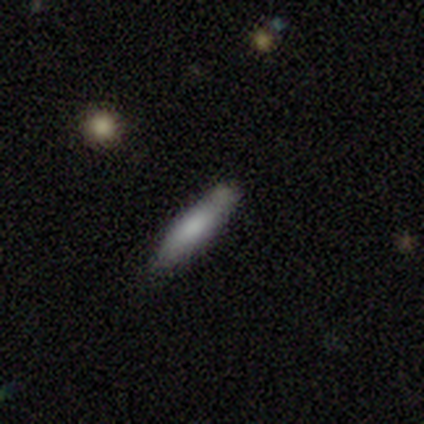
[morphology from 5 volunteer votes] Q: Smooth or featured?
A: smooth (80%); runner-up: star or artifact (20%)
Q: How rounded?
A: cigar-shaped (75%); runner-up: in between (25%)
Q: Merging?
A: none (75%); runner-up: minor disturbance (25%)